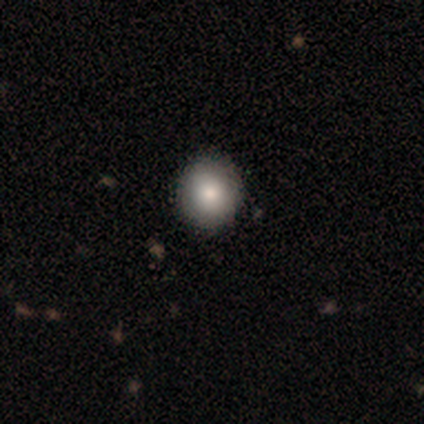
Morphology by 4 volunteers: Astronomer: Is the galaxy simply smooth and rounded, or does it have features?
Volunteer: smooth — 75%.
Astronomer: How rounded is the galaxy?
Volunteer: round — 67%.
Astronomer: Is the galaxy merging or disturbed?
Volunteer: none — 100%.